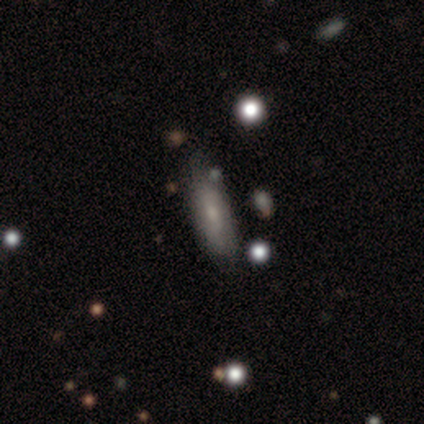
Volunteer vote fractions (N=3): Smooth or featured? featured or disk (67%)
Edge-on disk? yes (100%)
Edge-on bulge? boxy (50%, tied with none)
Merging? none (67%)